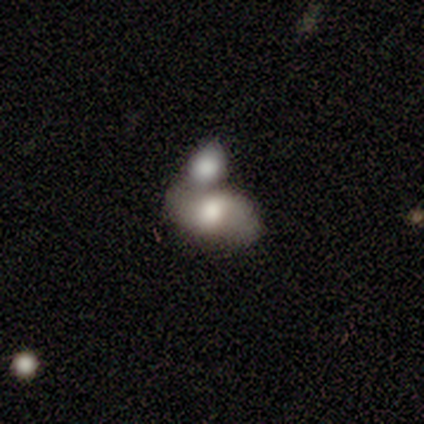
Q: Smooth or featured?
A: smooth (80%); runner-up: featured or disk (20%)
Q: How rounded?
A: in between (75%); runner-up: round (25%)
Q: Merging?
A: merger (100%)